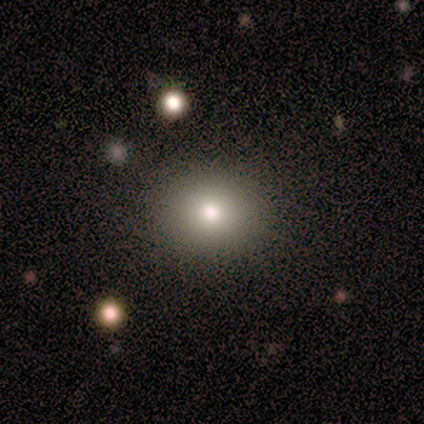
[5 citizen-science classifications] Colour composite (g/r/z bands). It shows a smooth galaxy with no disk features (100%) that is round (100%). Merging: none (60%).